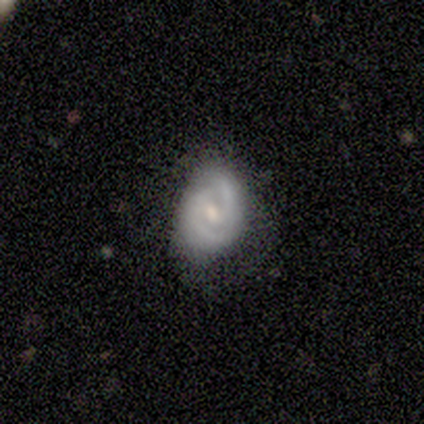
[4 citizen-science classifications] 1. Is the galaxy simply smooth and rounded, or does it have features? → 50% smooth (tied), 50% featured or disk (tied), 0% star or artifact.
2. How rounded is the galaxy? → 100% in between, 0% round, 0% cigar-shaped.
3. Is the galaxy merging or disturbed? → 50% none, 25% minor disturbance, 25% major disturbance, 0% merger.